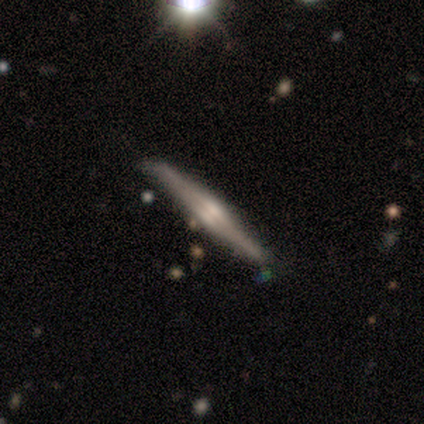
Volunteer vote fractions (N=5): Q: Smooth or featured?
A: featured or disk (100%)
Q: Edge-on disk?
A: yes (100%)
Q: Edge-on bulge?
A: rounded (60%); runner-up: boxy (20%)
Q: Merging?
A: none (60%); runner-up: minor disturbance (40%)